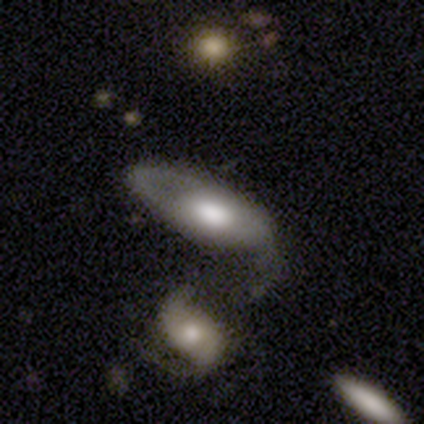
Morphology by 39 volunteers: smooth-or-featured: featured or disk: 67% | smooth: 28% | star or artifact: 5%
  disk-edge-on: no: 88% | yes: 12%
    bar: no: 83% | weak: 17% | strong: 0%
    has-spiral-arms: yes: 57% | no: 43%
      spiral-winding: medium: 38% (tied) | loose: 38% (tied) | tight: 23%
      spiral-arm-count: 2: 54% | 1: 31% | can't tell: 15% | 3: 0% | 4: 0% | more than 4: 0%
    bulge-size: large: 57% | moderate: 30% | small: 9% | dominant: 4% | none: 0%
  merging: minor disturbance: 30% | major disturbance: 24% | merger: 24% | none: 22%